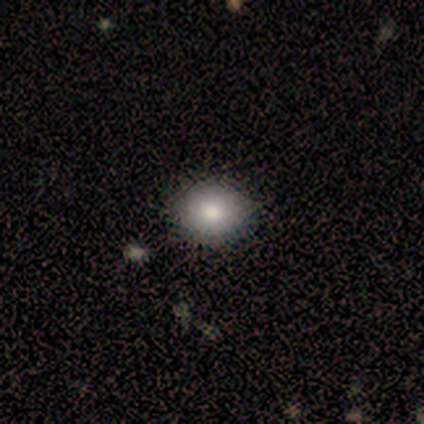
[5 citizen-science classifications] Q: Smooth or featured?
A: smooth (60%); runner-up: featured or disk (20%)
Q: How rounded?
A: round (100%)
Q: Merging?
A: none (100%)